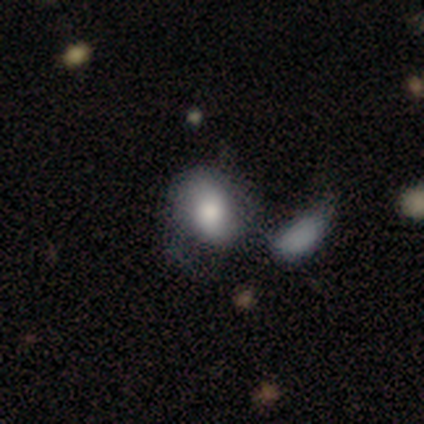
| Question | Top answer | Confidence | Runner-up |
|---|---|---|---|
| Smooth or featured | smooth | 75% | featured or disk (25%) |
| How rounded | in between | 100% | — |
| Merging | none | 75% | minor disturbance (25%) |